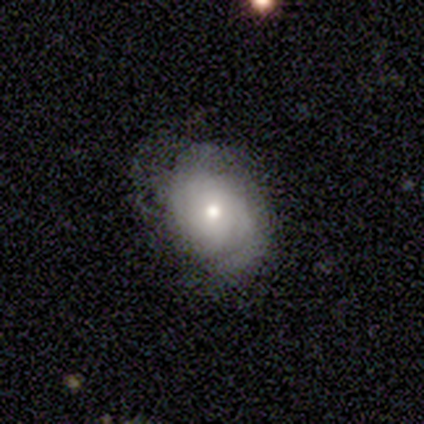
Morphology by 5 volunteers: smooth-or-featured: smooth: 60% | featured or disk: 40% | star or artifact: 0%
  how-rounded: in between: 67% | round: 33% | cigar-shaped: 0%
  merging: none: 40% (tied) | minor disturbance: 40% (tied) | major disturbance: 20% | merger: 0%